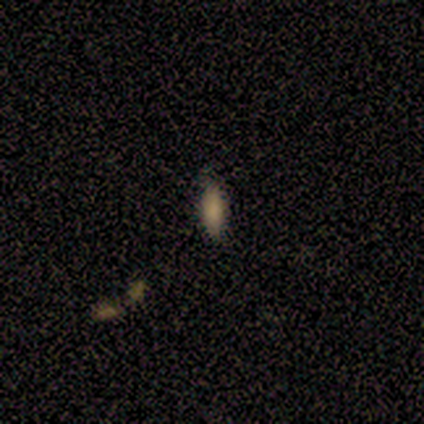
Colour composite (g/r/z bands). It shows a smooth galaxy with no disk features (75%) that is cigar-shaped (67%). Merging: none (100%).